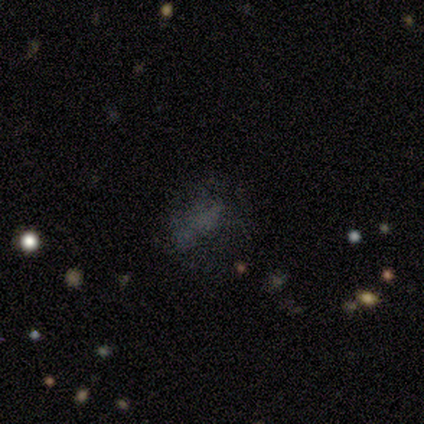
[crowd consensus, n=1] Smooth or featured?
  - star or artifact: 100% *
  - smooth: 0%
  - featured or disk: 0%